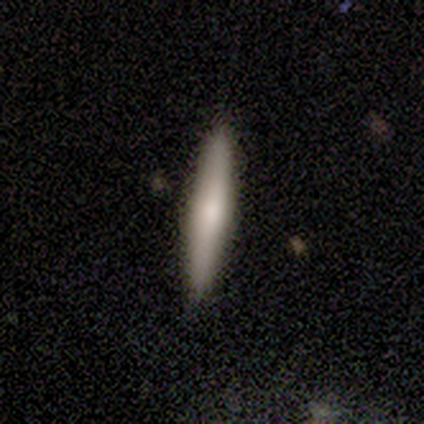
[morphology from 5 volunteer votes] smooth_or_featured: smooth (p=0.80) [alt: featured or disk p=0.20]
how_rounded: cigar-shaped (p=1.00)
merging: none (p=0.80) [alt: minor disturbance p=0.20]